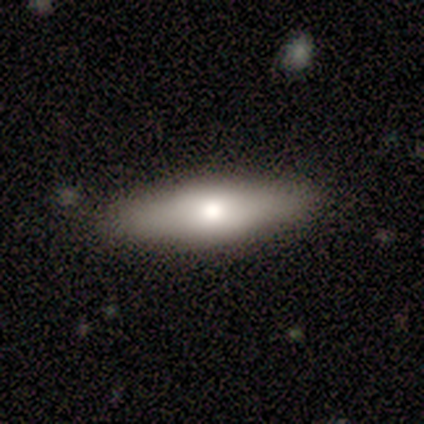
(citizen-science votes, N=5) Volunteers were most divided on "smooth or featured": featured or disk: 60%, smooth: 40%, star or artifact: 0%. More confident: edge-on disk — yes (100%); edge-on bulge — rounded (100%); merging — none (80%).